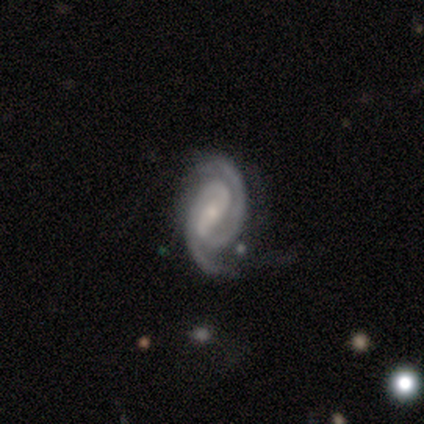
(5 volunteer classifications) A featured or disk galaxy (100%) with a strong bar (80%), 2 (100%) tight (80%) spiral arms (100%) and a small central bulge (100%).

Vote fractions:
- Smooth or featured? featured or disk: 100% / smooth: 0% / star or artifact: 0%
- Edge-on disk? no: 100% / yes: 0%
- Bar? strong: 80% / no: 20% / weak: 0%
- Spiral arms? yes: 100% / no: 0%
- Spiral winding? tight: 80% / loose: 20% / medium: 0%
- Spiral arm count? 2: 100% / 1: 0% / 3: 0% / 4: 0% / more than 4: 0% / can't tell: 0%
- Bulge size? small: 100% / dominant: 0% / large: 0% / moderate: 0% / none: 0%
- Merging? none: 80% / merger: 20% / minor disturbance: 0% / major disturbance: 0%